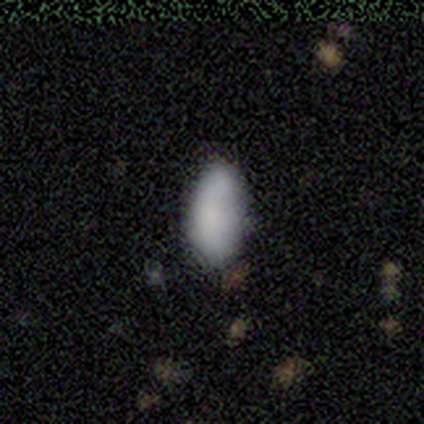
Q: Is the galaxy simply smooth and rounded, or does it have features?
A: smooth — 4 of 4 (100%).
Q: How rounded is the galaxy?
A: in between — 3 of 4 (75%).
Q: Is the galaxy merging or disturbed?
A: none — 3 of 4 (75%).